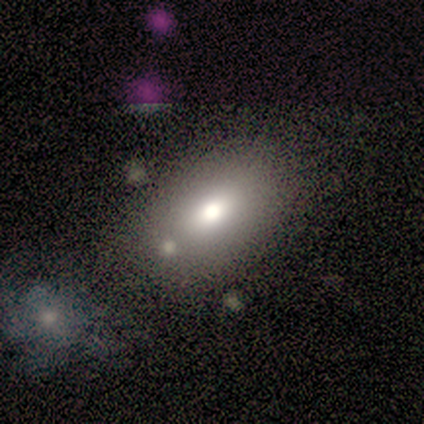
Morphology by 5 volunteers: Smooth or featured? smooth (80%)
How rounded? in between (75%)
Merging? none (50%, tied with merger)